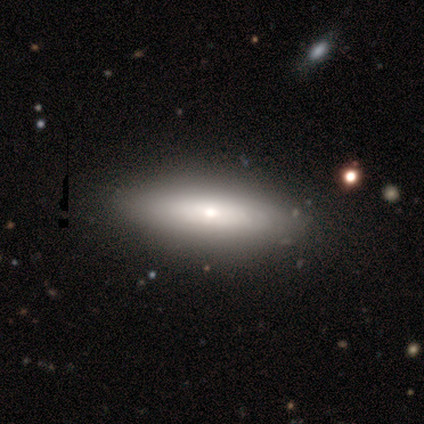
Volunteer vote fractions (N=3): smooth-or-featured: smooth: 100% | featured or disk: 0% | star or artifact: 0%
  how-rounded: in between: 67% | cigar-shaped: 33% | round: 0%
  merging: minor disturbance: 67% | none: 33% | major disturbance: 0% | merger: 0%